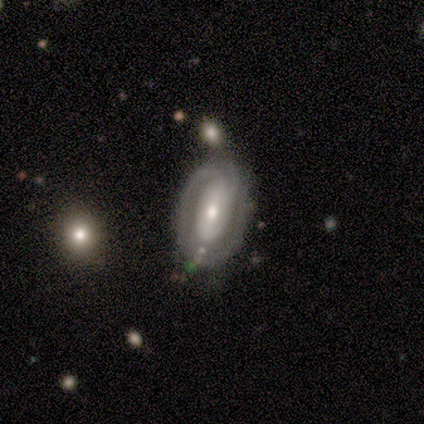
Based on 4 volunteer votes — A smooth galaxy with no disk features (50%, tied with featured or disk) that is in between round and cigar-shaped (100%). Merging: none (75%).